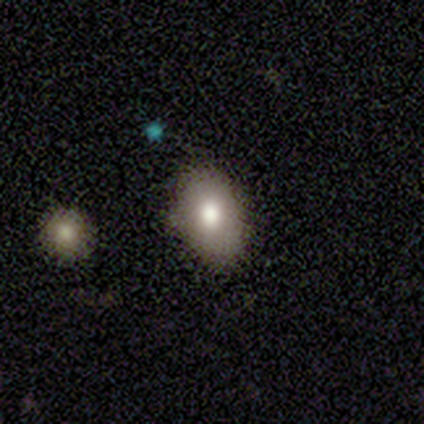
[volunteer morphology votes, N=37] smooth-or-featured: smooth: 86% | featured or disk: 11% | star or artifact: 3%
  how-rounded: in between: 75% | round: 25% | cigar-shaped: 0%
  merging: none: 81% | minor disturbance: 11% | merger: 6% | major disturbance: 3%